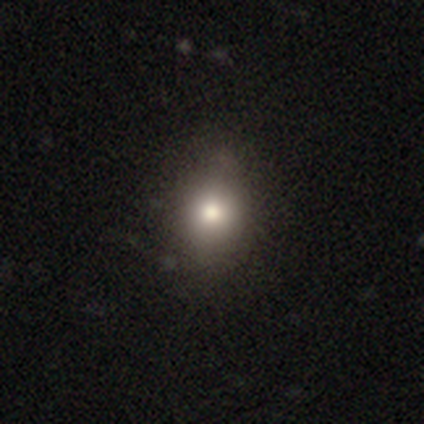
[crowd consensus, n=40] Smooth or featured? smooth (82%)
How rounded? in between (61%)
Merging? none (59%)